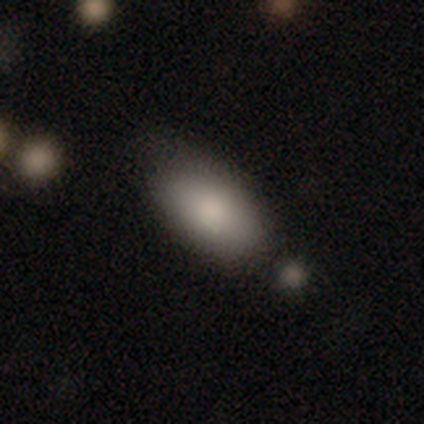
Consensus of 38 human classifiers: Q: Smooth or featured?
A: smooth (89%); runner-up: star or artifact (8%)
Q: How rounded?
A: in between (94%); runner-up: cigar-shaped (6%)
Q: Merging?
A: none (71%); runner-up: minor disturbance (17%)